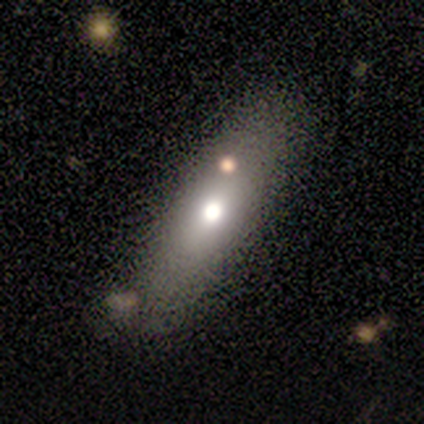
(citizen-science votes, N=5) Smooth or featured?
  - smooth: 80% *
  - featured or disk: 20%
  - star or artifact: 0%
How rounded?
  - in between: 75% *
  - round: 25%
  - cigar-shaped: 0%
Merging?
  - none: 60% *
  - minor disturbance: 20%
  - merger: 20%
  - major disturbance: 0%